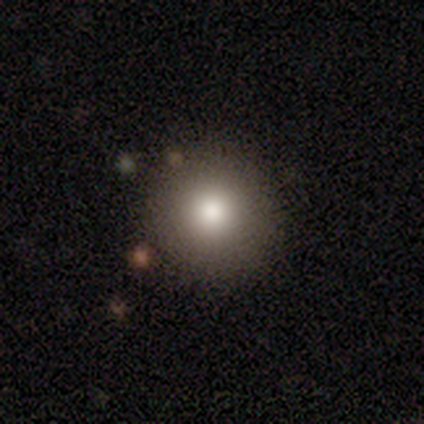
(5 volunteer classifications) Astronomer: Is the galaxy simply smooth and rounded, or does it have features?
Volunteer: smooth — 100%.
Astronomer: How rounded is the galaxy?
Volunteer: round — 100%.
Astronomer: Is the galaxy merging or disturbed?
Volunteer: none — 100%.